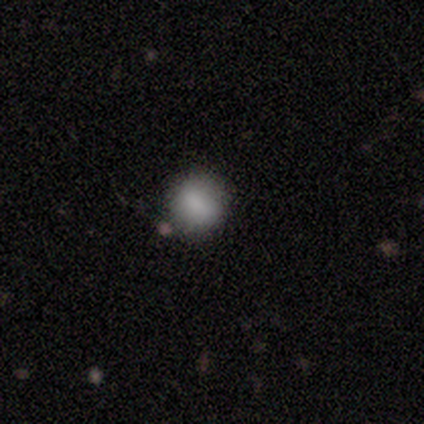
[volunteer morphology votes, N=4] Overall: smooth (100%). How rounded: round (100%). Merging: none (75%).